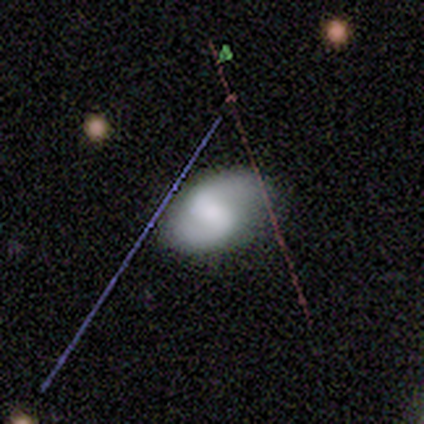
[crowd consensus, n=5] A featured or disk galaxy (60%) with a strong bar (67%), 2 (50%, tied with can't tell) tight (50%, tied with loose) spiral arms (67%) and a large central bulge (33%, tied with moderate and small). Merging: minor disturbance (60%).